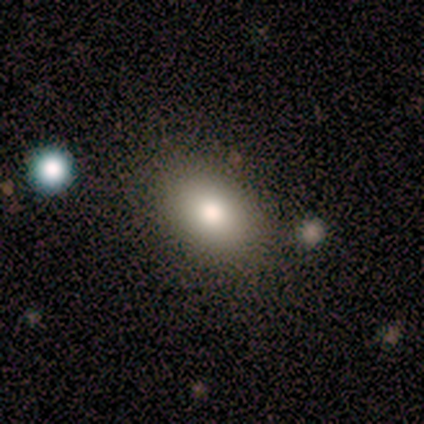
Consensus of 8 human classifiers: Q: Smooth or featured?
A: smooth (62%); runner-up: featured or disk (38%)
Q: How rounded?
A: round (60%); runner-up: in between (40%)
Q: Merging?
A: none (88%); runner-up: minor disturbance (12%)